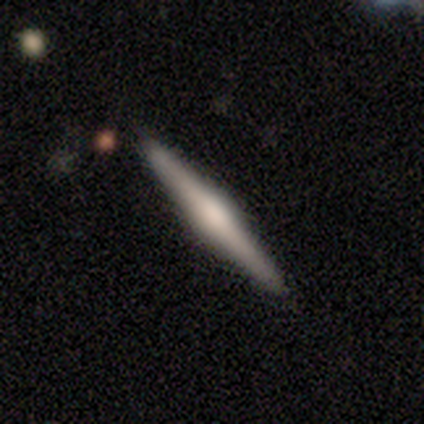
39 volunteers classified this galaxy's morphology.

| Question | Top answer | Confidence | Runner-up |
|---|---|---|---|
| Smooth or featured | featured or disk | 74% | smooth (26%) |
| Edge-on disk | yes | 100% | — |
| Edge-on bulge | rounded | 72% | boxy (21%) |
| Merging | none | 95% | minor disturbance (3%) |